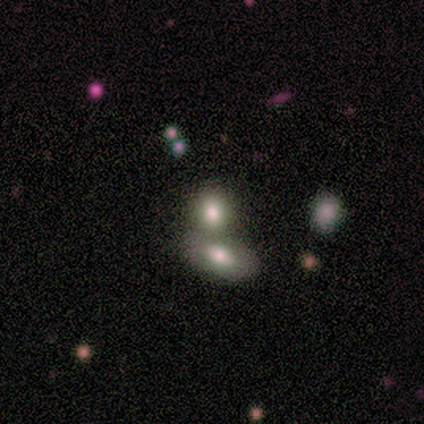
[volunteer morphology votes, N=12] Overall: smooth (67%). How rounded: round (50%, tied with in between). Merging: merger (73%).